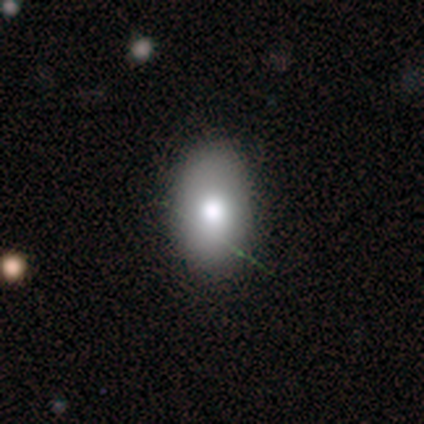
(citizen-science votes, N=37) smooth-or-featured: smooth: 73% | featured or disk: 16% | star or artifact: 11%
  how-rounded: in between: 89% | round: 11% | cigar-shaped: 0%
  merging: none: 73% | minor disturbance: 24% | major disturbance: 3% | merger: 0%